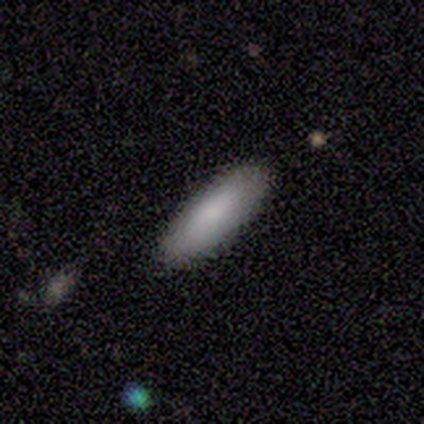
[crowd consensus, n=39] Smooth or featured? smooth (90%)
How rounded? cigar-shaped (51%)
Merging? none (92%)